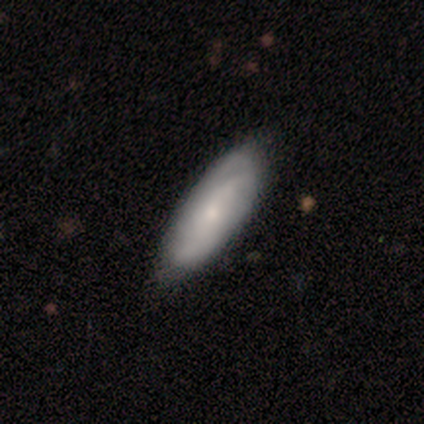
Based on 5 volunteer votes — A smooth galaxy with no disk features (100%) that is in between round and cigar-shaped (80%). Merging: none (80%).